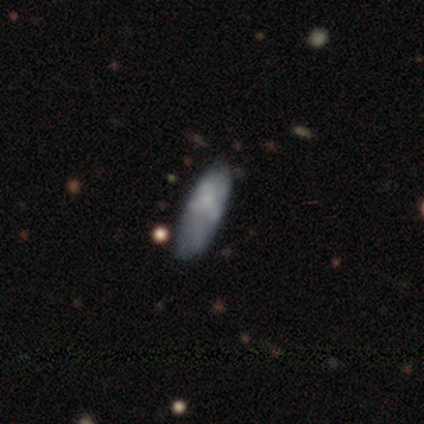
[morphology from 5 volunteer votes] smooth 80%, featured or disk 20%, star or artifact 0%. Down the decision tree: how rounded — in between (75%); merging — none (60%).